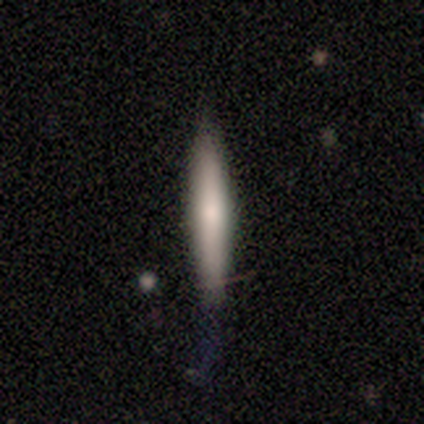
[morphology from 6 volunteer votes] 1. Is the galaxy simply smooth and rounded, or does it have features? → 67% smooth, 33% featured or disk, 0% star or artifact.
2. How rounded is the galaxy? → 100% cigar-shaped, 0% round, 0% in between.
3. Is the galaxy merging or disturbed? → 67% none, 33% minor disturbance, 0% major disturbance, 0% merger.